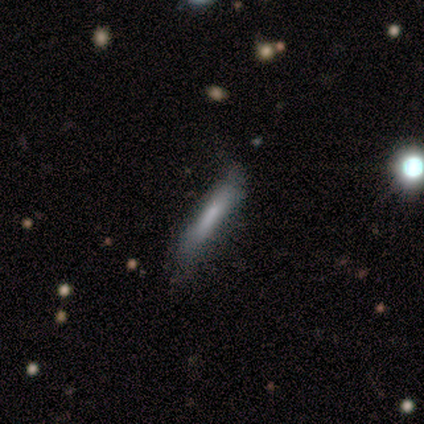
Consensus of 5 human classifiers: Smooth or featured: smooth — 60% (featured or disk — 40%)
How rounded: cigar-shaped — 67% (round — 33%)
Merging: none — 60% (minor disturbance — 20%)